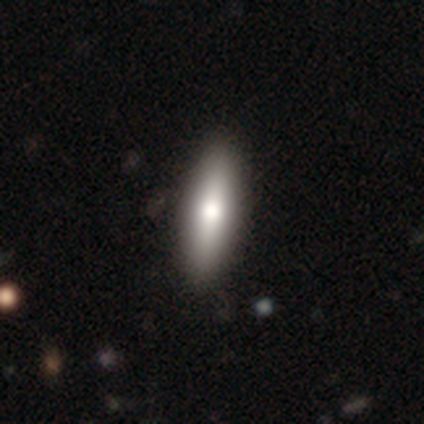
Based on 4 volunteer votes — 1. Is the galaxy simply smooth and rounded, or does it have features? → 50% star or artifact, 25% smooth, 25% featured or disk.